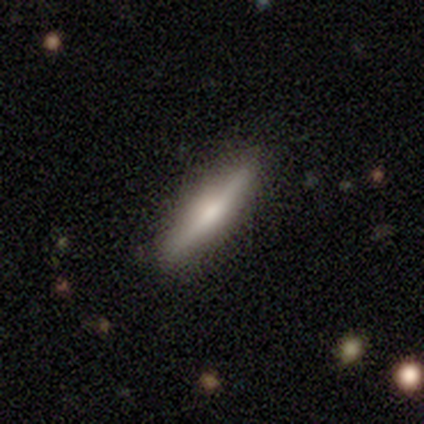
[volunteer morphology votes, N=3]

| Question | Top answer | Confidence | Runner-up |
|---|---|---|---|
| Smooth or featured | smooth | 67% | featured or disk (33%) |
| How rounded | cigar-shaped | 100% | — |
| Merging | none | 100% | — |